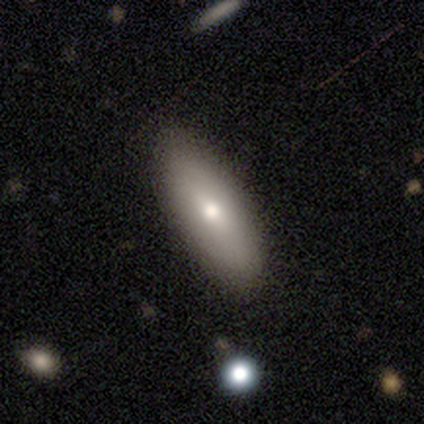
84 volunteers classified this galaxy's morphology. smooth-or-featured: smooth: 64% | featured or disk: 30% | star or artifact: 6%
  how-rounded: in between: 69% | cigar-shaped: 30% | round: 2%
  merging: none: 87% | minor disturbance: 9% | major disturbance: 3% | merger: 1%